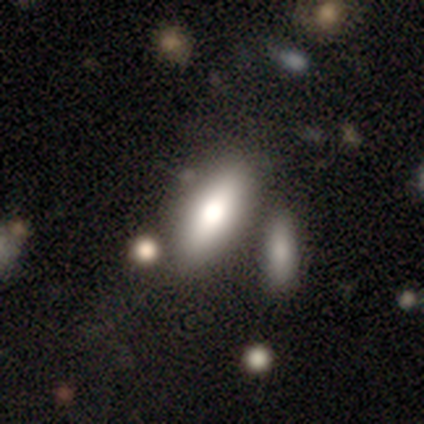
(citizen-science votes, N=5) Smooth or featured? smooth (80%)
How rounded? in between (100%)
Merging? none (100%)